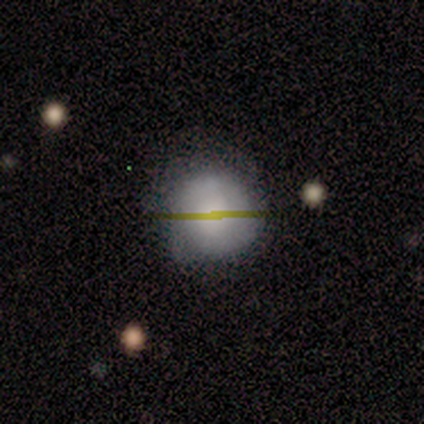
This is clearly a smooth galaxy (83%). How rounded: clearly round (100%). Merging: clearly none (80%).